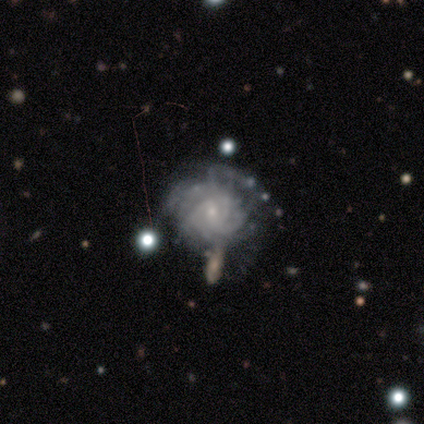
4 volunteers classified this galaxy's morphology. smooth-or-featured: featured or disk: 100% | smooth: 0% | star or artifact: 0%
  disk-edge-on: no: 100% | yes: 0%
    bar: weak: 50% (tied) | no: 50% (tied) | strong: 0%
    has-spiral-arms: yes: 100% | no: 0%
      spiral-winding: tight: 50% | medium: 25% | loose: 25%
      spiral-arm-count: can't tell: 75% | 3: 25% | 1: 0% | 2: 0% | 4: 0% | more than 4: 0%
    bulge-size: small: 75% | moderate: 25% | dominant: 0% | large: 0% | none: 0%
  merging: minor disturbance: 50% | major disturbance: 25% | merger: 25% | none: 0%